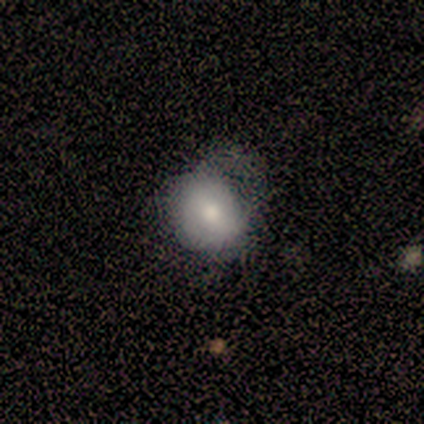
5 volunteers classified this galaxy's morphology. smooth-or-featured: smooth: 80% | featured or disk: 20% | star or artifact: 0%
  how-rounded: round: 75% | in between: 25% | cigar-shaped: 0%
  merging: none: 40% (tied) | major disturbance: 40% (tied) | minor disturbance: 20% | merger: 0%